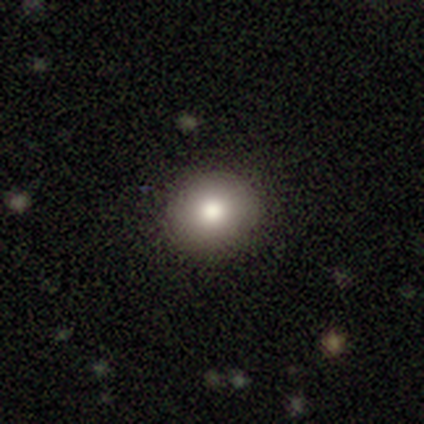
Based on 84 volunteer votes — smooth_or_featured: smooth (p=0.87) [alt: featured or disk p=0.10]
how_rounded: round (p=0.85) [alt: in between p=0.15]
merging: none (p=0.95) [alt: minor disturbance p=0.04]